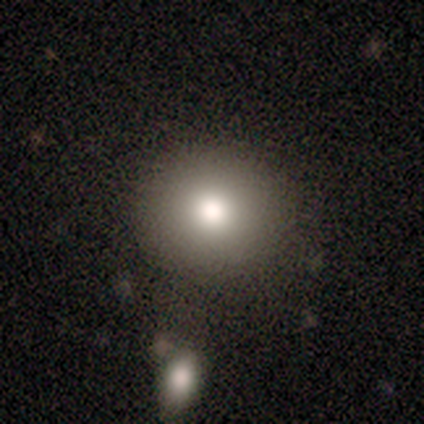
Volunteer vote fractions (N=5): A smooth galaxy with no disk features (80%) that is round (100%). Merging: none (100%).